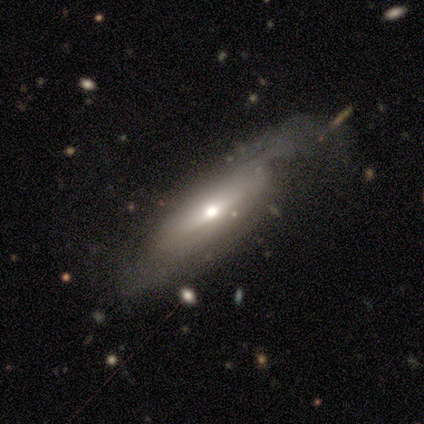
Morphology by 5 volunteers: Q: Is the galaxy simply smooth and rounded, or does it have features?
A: featured or disk — 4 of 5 (80%).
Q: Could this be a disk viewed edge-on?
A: yes — 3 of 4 (75%).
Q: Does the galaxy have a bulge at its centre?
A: rounded — 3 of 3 (100%).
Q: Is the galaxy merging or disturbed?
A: major disturbance — 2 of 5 (40%).